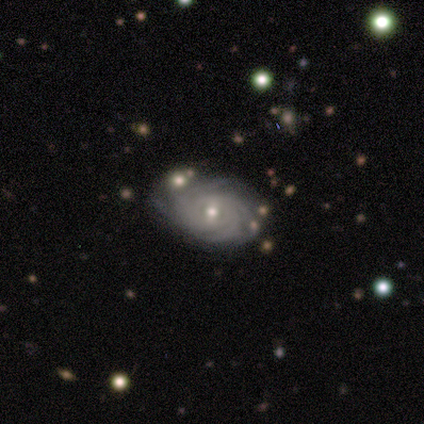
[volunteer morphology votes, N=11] smooth-or-featured: featured or disk: 91% | smooth: 9% | star or artifact: 0%
  disk-edge-on: no: 100% | yes: 0%
    bar: weak: 80% | no: 20% | strong: 0%
    has-spiral-arms: yes: 100% | no: 0%
      spiral-winding: tight: 80% | medium: 20% | loose: 0%
      spiral-arm-count: can't tell: 60% | more than 4: 20% | 3: 10% | 4: 10% | 1: 0% | 2: 0%
    bulge-size: moderate: 60% | small: 30% | none: 10% | dominant: 0% | large: 0%
  merging: none: 73% | minor disturbance: 27% | major disturbance: 0% | merger: 0%